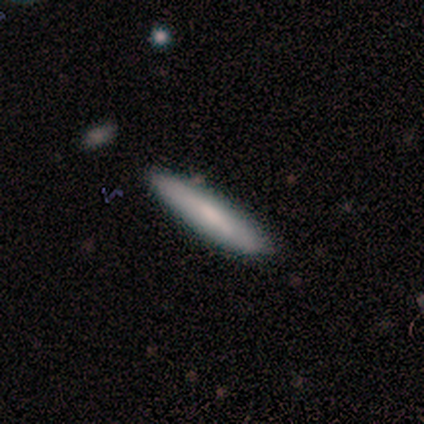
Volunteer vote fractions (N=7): A smooth galaxy with no disk features (86%) that is cigar-shaped (100%).

Vote fractions:
- Smooth or featured? smooth: 86% / star or artifact: 14% / featured or disk: 0%
- How rounded? cigar-shaped: 100% / round: 0% / in between: 0%
- Merging? none: 83% / merger: 17% / minor disturbance: 0% / major disturbance: 0%